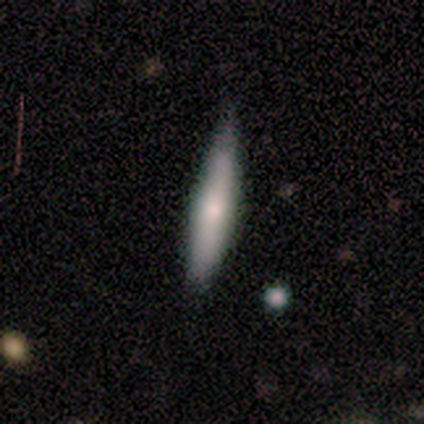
smooth-or-featured: smooth: 75% | featured or disk: 25% | star or artifact: 0%
  how-rounded: cigar-shaped: 100% | round: 0% | in between: 0%
  merging: none: 75% | minor disturbance: 25% | major disturbance: 0% | merger: 0%